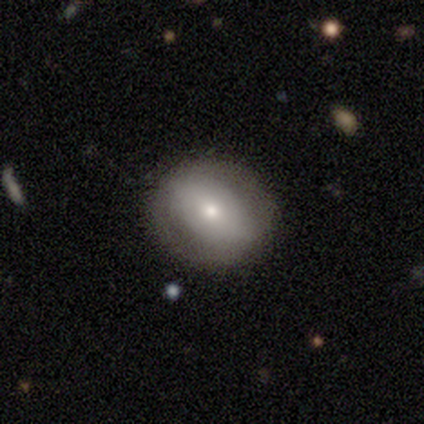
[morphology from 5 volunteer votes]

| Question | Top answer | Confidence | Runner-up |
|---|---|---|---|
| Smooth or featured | featured or disk | 60% | smooth (40%) |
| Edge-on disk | no | 100% | — |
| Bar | strong | 67% | no (33%) |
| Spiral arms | no | 100% | — |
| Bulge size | moderate | 67% | small (33%) |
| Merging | none | 80% | major disturbance (20%) |